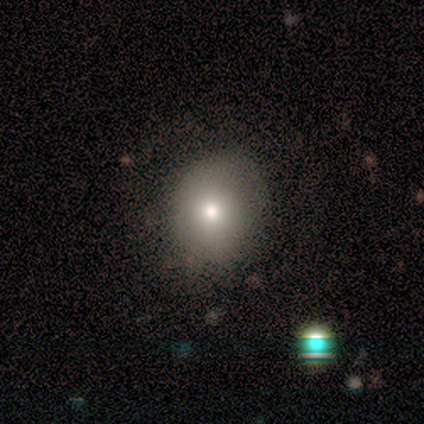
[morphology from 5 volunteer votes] Smooth or featured? 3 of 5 (60%) said smooth. How rounded? 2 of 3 (67%) said in between. Merging? 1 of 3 (33%, tied with minor disturbance and major disturbance) said none.